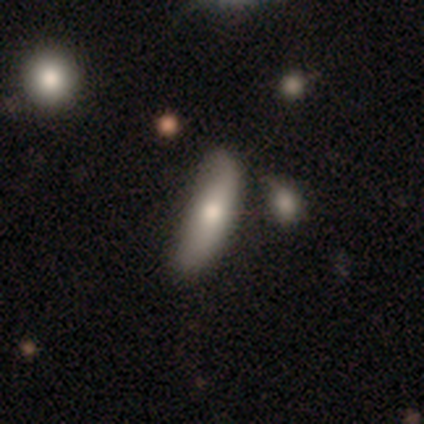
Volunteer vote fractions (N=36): Smooth or featured?
  - smooth: 69% *
  - featured or disk: 28%
  - star or artifact: 3%
How rounded?
  - cigar-shaped: 64% *
  - in between: 36%
  - round: 0%
Merging?
  - minor disturbance: 34% *
  - none: 31%
  - merger: 11%
  - major disturbance: 3%